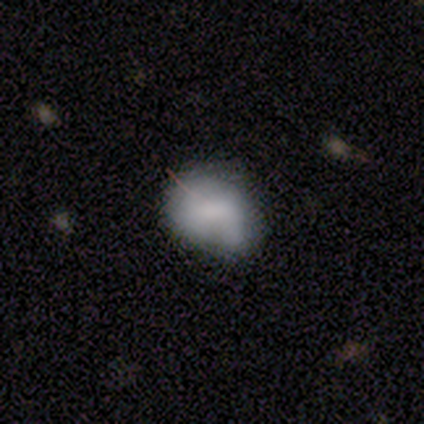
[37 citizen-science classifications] This appears to be a smooth galaxy with no disk features (70%) that is round (50%, tied with in between). Merging: minor disturbance (47%).